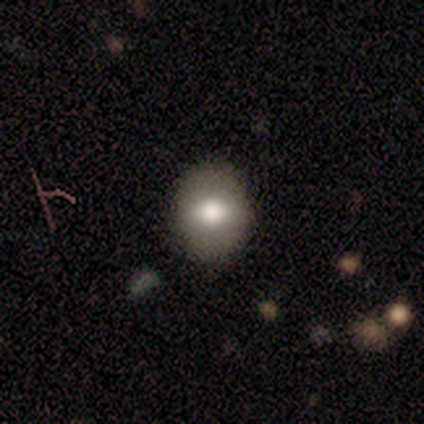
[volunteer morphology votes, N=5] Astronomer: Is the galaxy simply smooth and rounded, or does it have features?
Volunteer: smooth — 60% (runner-up: featured or disk, 40%).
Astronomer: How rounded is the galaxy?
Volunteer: round — 67%.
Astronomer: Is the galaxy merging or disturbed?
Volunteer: none — 100%.